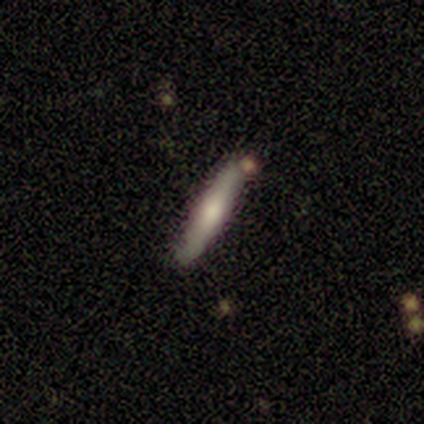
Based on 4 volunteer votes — Smooth or featured? 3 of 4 (75%) said featured or disk. Edge-on disk? 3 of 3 (100%) said yes. Edge-on bulge? 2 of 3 (67%) said rounded. Merging? 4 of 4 (100%) said none.